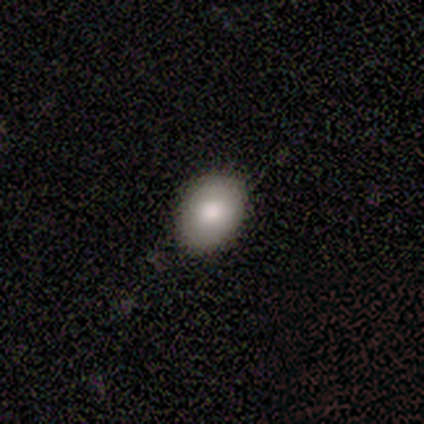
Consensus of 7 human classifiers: smooth 86%, star or artifact 14%, featured or disk 0%. Down the decision tree: how rounded — round (50%, tied with in between); merging — none (100%).